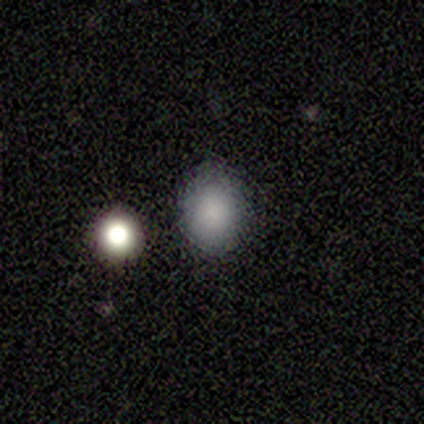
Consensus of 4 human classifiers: A smooth galaxy with no disk features (75%) that is round (67%). Merging: none (67%).